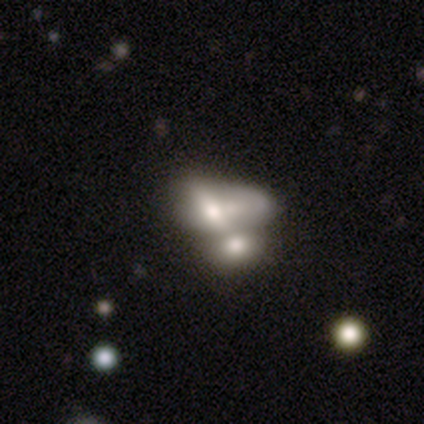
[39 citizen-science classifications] Q: Smooth or featured?
A: smooth (54%); runner-up: featured or disk (44%)
Q: How rounded?
A: in between (86%); runner-up: round (10%)
Q: Merging?
A: merger (71%); runner-up: major disturbance (8%)